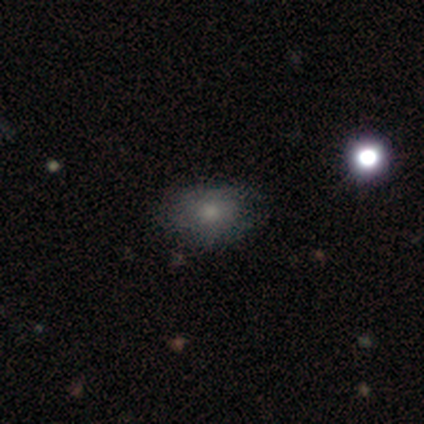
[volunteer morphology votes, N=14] Volunteers were most divided on "smooth or featured": featured or disk: 50%, smooth: 43%, star or artifact: 7%. More confident: edge-on disk — no (100%); spiral arms — no (100%); bar — no (86%); merging — none (77%); bulge size — moderate (57%).